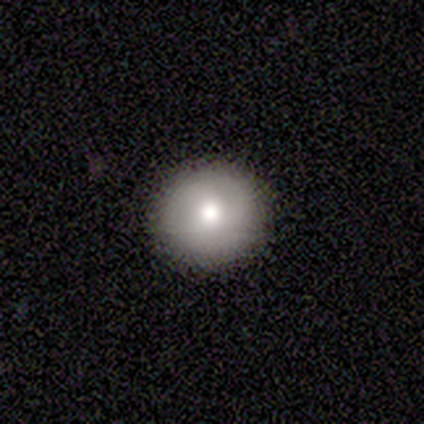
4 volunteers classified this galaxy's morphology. smooth_or_featured: smooth (p=0.50) [tied with: featured or disk p=0.50]
how_rounded: round (p=1.00)
merging: none (p=1.00)